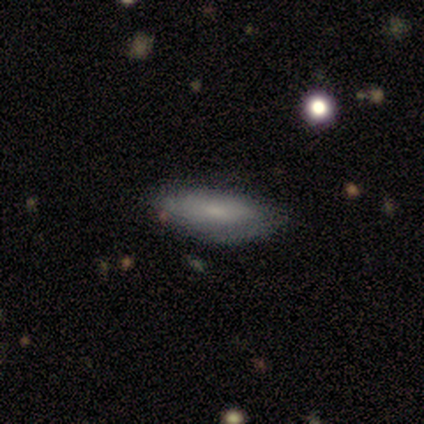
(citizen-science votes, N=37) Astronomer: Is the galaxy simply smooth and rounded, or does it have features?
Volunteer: smooth — 54% (runner-up: featured or disk, 46%).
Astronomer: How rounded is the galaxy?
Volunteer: in between — 60% (runner-up: cigar-shaped, 40%).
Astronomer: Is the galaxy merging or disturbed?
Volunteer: none — 78%.